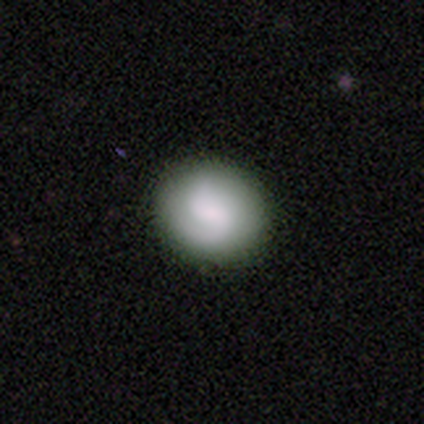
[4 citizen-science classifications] Q: Smooth or featured?
A: smooth (50%); tied with: featured or disk (50%)
Q: How rounded?
A: round (100%)
Q: Merging?
A: none (100%)